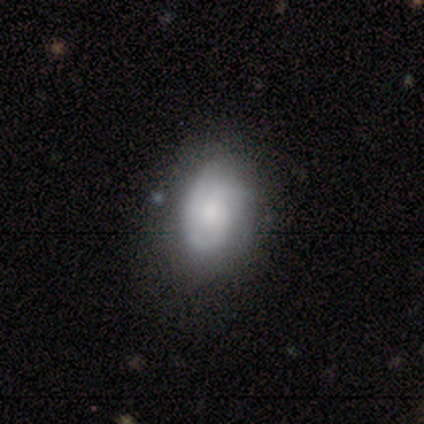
Smooth or featured?
  - smooth: 80% *
  - featured or disk: 20%
  - star or artifact: 0%
How rounded?
  - in between: 100% *
  - round: 0%
  - cigar-shaped: 0%
Merging?
  - minor disturbance: 80% *
  - none: 20%
  - major disturbance: 0%
  - merger: 0%